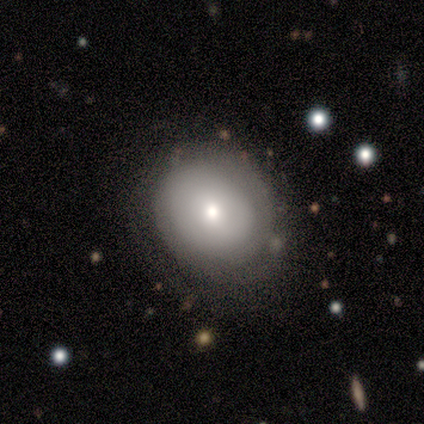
smooth 50% (tied), featured or disk 50% (tied), star or artifact 0%. Down the decision tree: how rounded — round (50%, tied with in between); merging — none (75%).